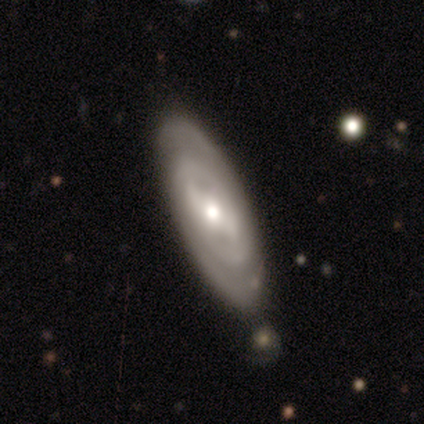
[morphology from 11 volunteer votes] Smooth or featured? featured or disk (100%)
Edge-on disk? no (91%)
Bar? weak (60%)
Spiral arms? yes (80%)
Spiral winding? tight (75%)
Spiral arm count? 2 (62%)
Bulge size? moderate (70%)
Merging? none (82%)